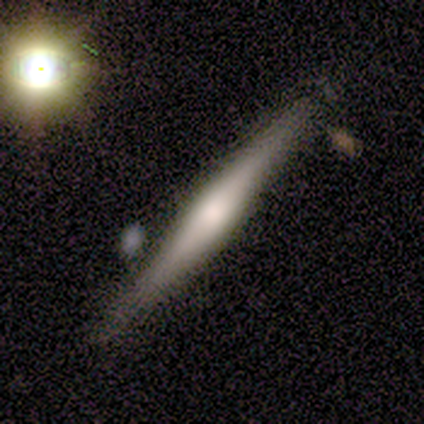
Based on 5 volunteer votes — smooth-or-featured: smooth: 60% | featured or disk: 40% | star or artifact: 0%
  how-rounded: cigar-shaped: 100% | round: 0% | in between: 0%
  merging: none: 100% | minor disturbance: 0% | major disturbance: 0% | merger: 0%